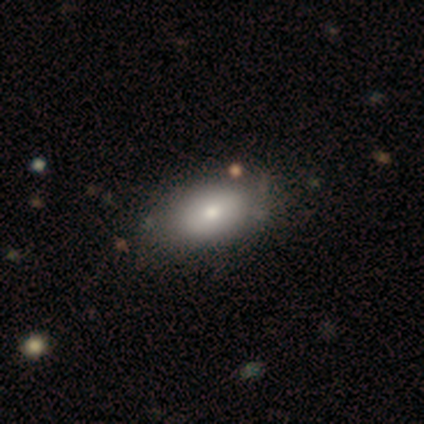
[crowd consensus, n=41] smooth 76%, featured or disk 17%, star or artifact 7%. Down the decision tree: how rounded — in between (94%); merging — none (61%).